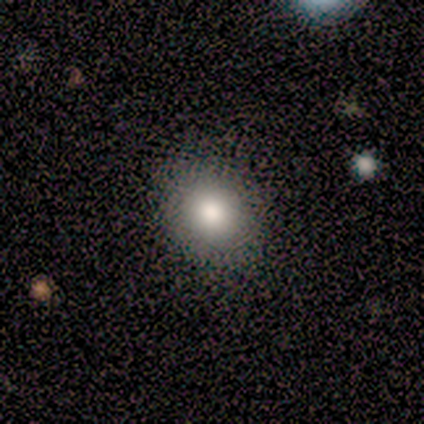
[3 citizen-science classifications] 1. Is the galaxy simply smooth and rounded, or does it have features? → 100% smooth, 0% featured or disk, 0% star or artifact.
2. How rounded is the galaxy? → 67% in between, 33% round, 0% cigar-shaped.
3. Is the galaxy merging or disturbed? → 33% none (tied), 33% minor disturbance (tied), 33% major disturbance (tied), 0% merger.